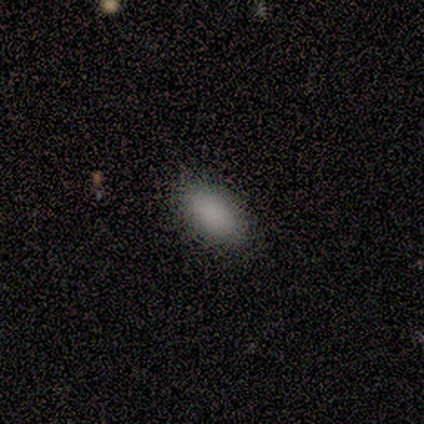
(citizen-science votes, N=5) Smooth or featured: smooth — 100%
How rounded: in between — 80% (round — 20%)
Merging: none — 80% (major disturbance — 20%)